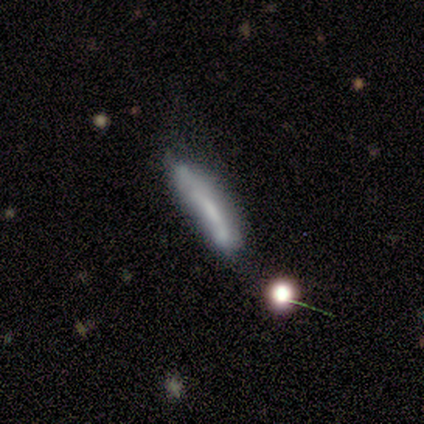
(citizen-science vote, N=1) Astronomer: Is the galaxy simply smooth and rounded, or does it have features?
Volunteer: smooth — 100%.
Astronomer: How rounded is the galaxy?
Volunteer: cigar-shaped — 100%.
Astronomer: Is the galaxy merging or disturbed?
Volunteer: major disturbance — 100%.